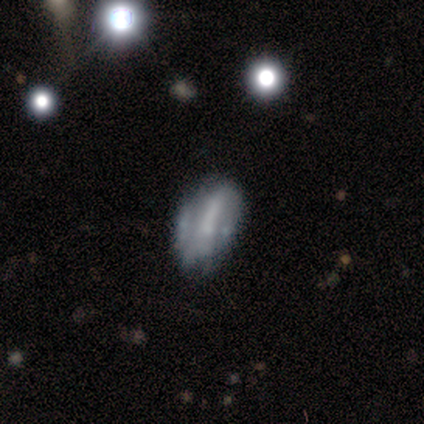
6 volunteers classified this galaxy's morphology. Volunteers were most divided on "smooth or featured": smooth: 50%, star or artifact: 33%, featured or disk: 17%. More confident: how rounded — in between (100%); merging — none (50%).